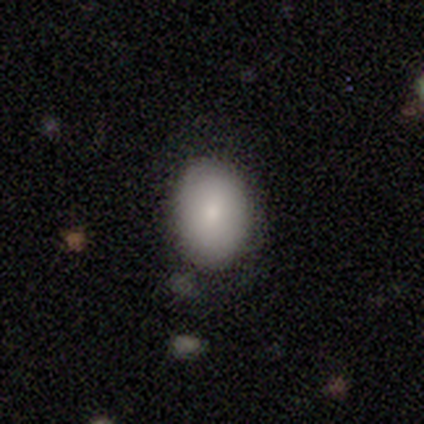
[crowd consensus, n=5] Smooth or featured?
  - smooth: 80% *
  - featured or disk: 20%
  - star or artifact: 0%
How rounded?
  - round: 50% * (tied)
  - in between: 50% * (tied)
  - cigar-shaped: 0%
Merging?
  - none: 60% *
  - minor disturbance: 20%
  - major disturbance: 20%
  - merger: 0%